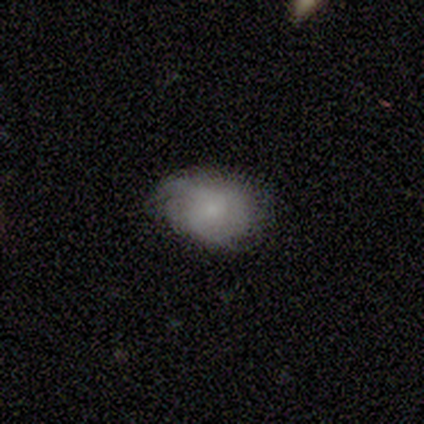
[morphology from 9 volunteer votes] Smooth or featured?
  - star or artifact: 44% *
  - smooth: 33%
  - featured or disk: 22%